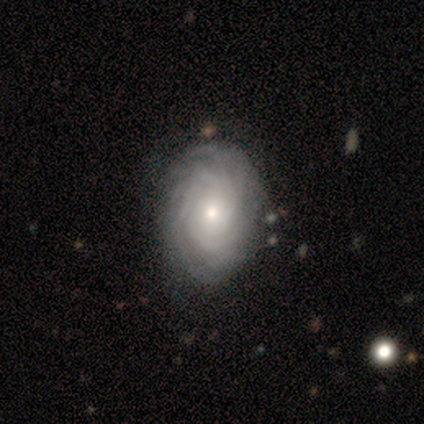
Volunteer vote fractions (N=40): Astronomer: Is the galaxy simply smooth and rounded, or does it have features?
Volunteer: featured or disk — 98%.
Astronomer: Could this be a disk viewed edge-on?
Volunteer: no — 97%.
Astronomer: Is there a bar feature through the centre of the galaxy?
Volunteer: no — 84%.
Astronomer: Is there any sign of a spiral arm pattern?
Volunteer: yes — 100%.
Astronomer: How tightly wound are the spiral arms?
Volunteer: tight — 84%.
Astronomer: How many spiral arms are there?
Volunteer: more than 4 — 50% (runner-up: can't tell, 34%).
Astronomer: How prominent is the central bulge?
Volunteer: moderate — 53% (runner-up: small, 45%).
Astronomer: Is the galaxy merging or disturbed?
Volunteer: none — 52%.